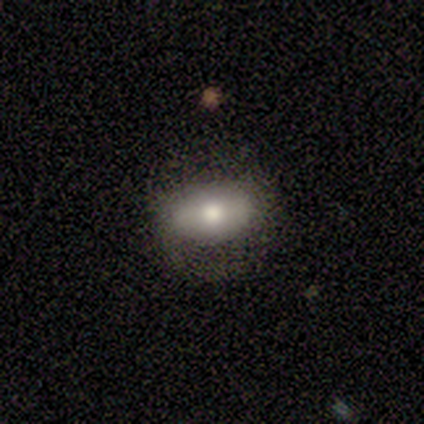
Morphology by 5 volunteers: Q: Smooth or featured?
A: smooth (40%); tied with: featured or disk (40%)
Q: How rounded?
A: round (50%); tied with: in between (50%)
Q: Merging?
A: minor disturbance (50%); runner-up: none (25%)